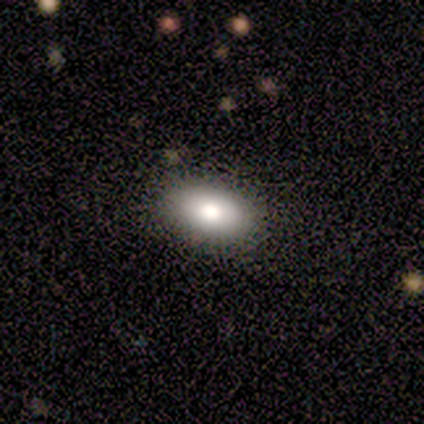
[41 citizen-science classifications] smooth 76%, star or artifact 15%, featured or disk 10%. Down the decision tree: how rounded — in between (94%); merging — none (89%).